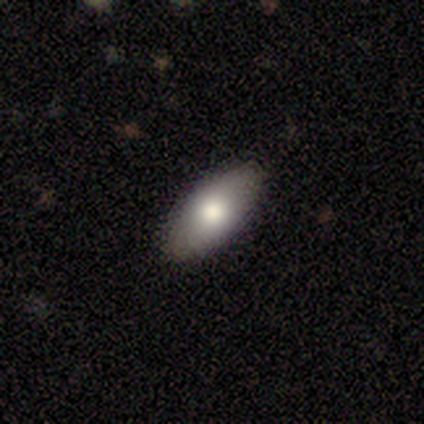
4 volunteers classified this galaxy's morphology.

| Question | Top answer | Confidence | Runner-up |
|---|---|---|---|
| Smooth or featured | smooth | 100% | — |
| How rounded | in between | 75% | cigar-shaped (25%) |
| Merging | none | 100% | — |